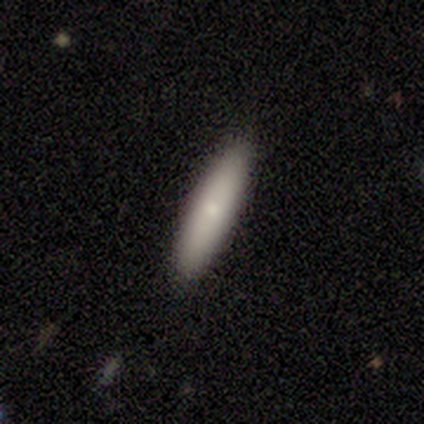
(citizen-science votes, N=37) A smooth galaxy with no disk features (76%) that is cigar-shaped (86%). Merging: none (85%).